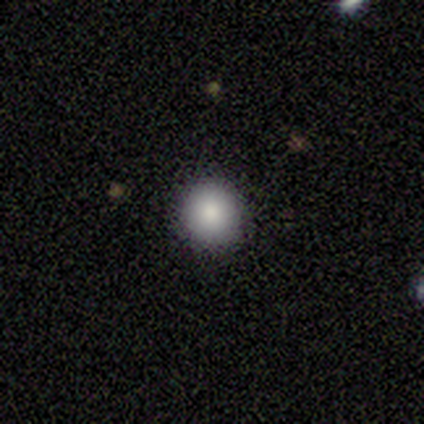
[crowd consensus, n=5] Morphology: type=smooth (80%); roundness=round (100%); merging=none (100%).